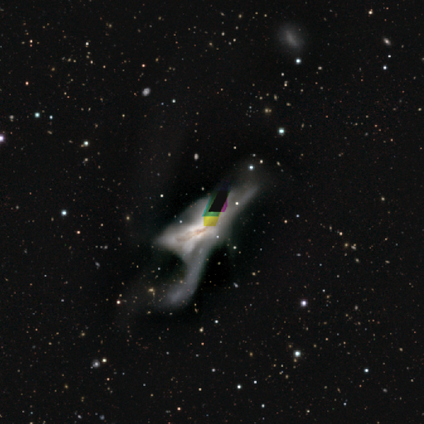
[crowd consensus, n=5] This appears to be a featured or disk galaxy (40%, tied with star or artifact) with no bar (100%), no spiral arms (100%) and a large central bulge (50%, tied with none). Merging: merger (67%).